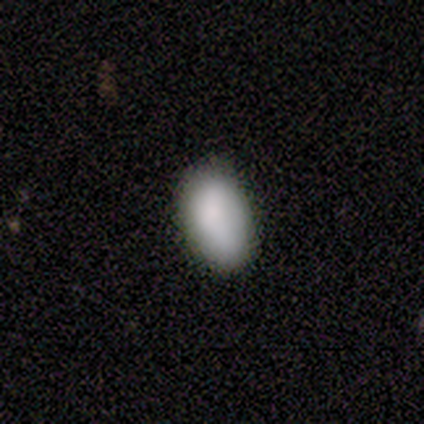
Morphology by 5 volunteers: smooth-or-featured: smooth: 100% | featured or disk: 0% | star or artifact: 0%
  how-rounded: in between: 100% | round: 0% | cigar-shaped: 0%
  merging: none: 100% | minor disturbance: 0% | major disturbance: 0% | merger: 0%